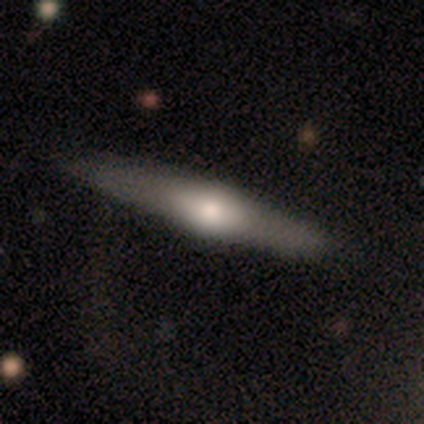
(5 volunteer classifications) This is likely a smooth galaxy (60%). How rounded: clearly cigar-shaped (100%). Merging: clearly none (100%).